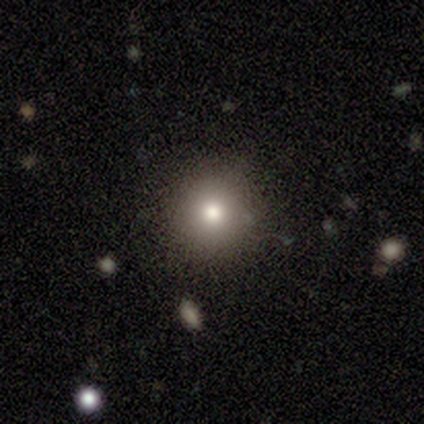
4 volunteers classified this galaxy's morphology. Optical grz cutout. It shows a smooth galaxy with no disk features (50%) that is round (100%). Merging: none (100%).